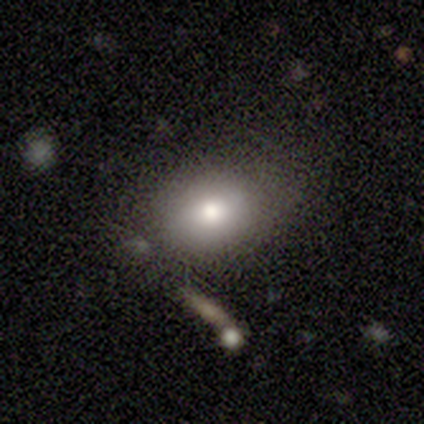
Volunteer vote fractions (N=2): smooth 50% (tied), featured or disk 50% (tied), star or artifact 0%. Down the decision tree: how rounded — in between (100%); merging — none (50%, tied with minor disturbance).